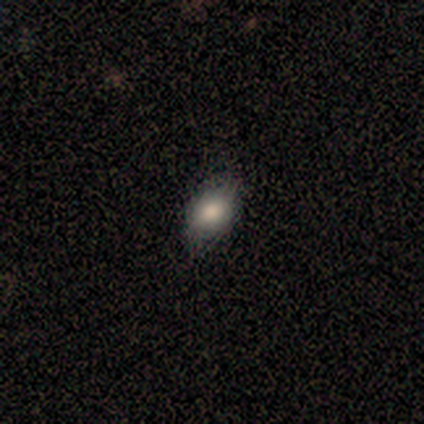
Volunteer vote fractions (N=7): smooth 86%, featured or disk 14%, star or artifact 0%. Down the decision tree: how rounded — in between (67%); merging — none (100%).